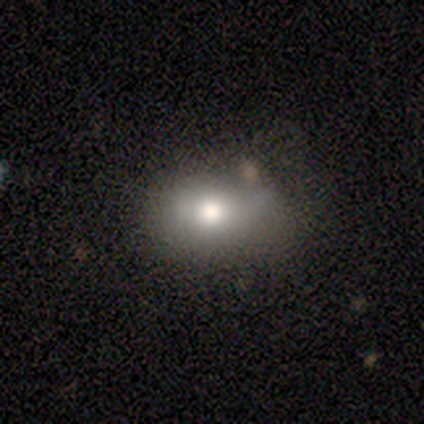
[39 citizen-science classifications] Morphology: type=smooth (82%); roundness=in between (69%); merging=none (61%).